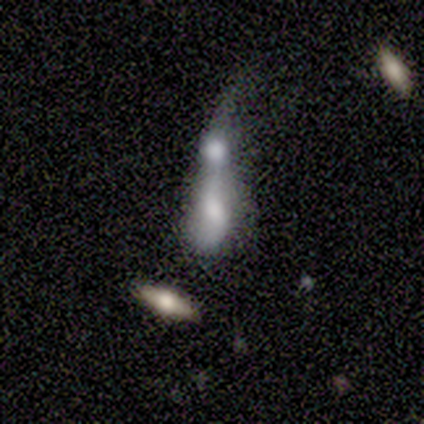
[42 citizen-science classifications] Smooth or featured: featured or disk — 55% (smooth — 38%)
Edge-on disk: no — 83% (yes — 17%)
Bar: no — 63% (weak — 32%)
Spiral arms: no — 53% (yes — 47%)
Bulge size: moderate — 47% (large — 26%)
Merging: merger — 85% (major disturbance — 8%)